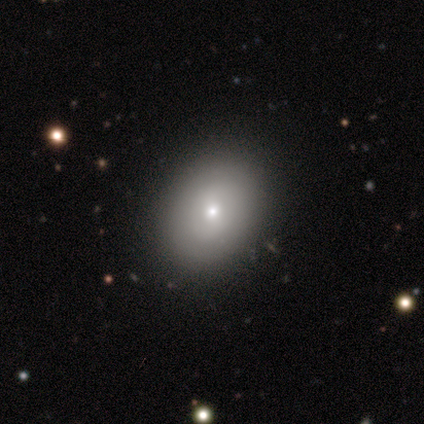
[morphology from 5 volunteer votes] This is clearly a smooth galaxy (100%). How rounded: likely in between (60%). Merging: clearly none (100%).